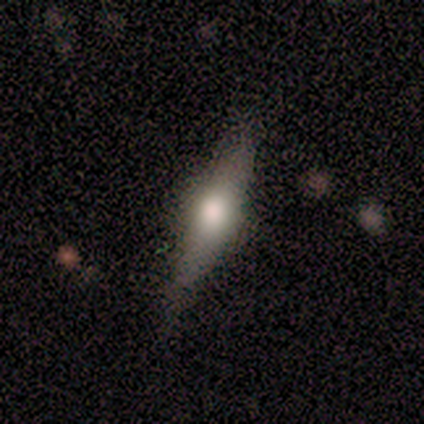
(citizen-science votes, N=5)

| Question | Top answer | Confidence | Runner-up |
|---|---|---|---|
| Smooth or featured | smooth | 60% | featured or disk (40%) |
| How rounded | round | 33% | tied: in between (33%), cigar-shaped (33%) |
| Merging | none | 80% | minor disturbance (20%) |